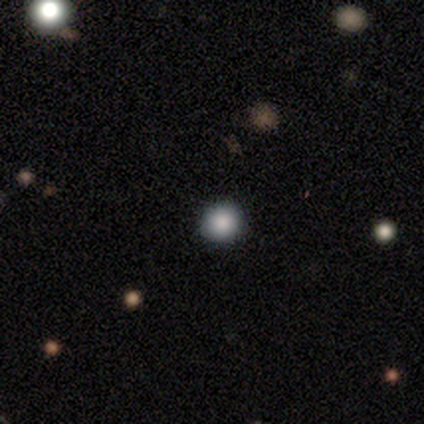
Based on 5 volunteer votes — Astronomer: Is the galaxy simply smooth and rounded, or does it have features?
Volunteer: smooth — 100%.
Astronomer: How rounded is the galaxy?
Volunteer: round — 100%.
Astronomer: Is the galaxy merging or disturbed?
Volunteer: none — 100%.